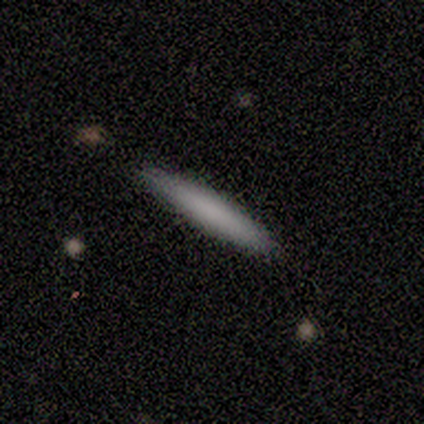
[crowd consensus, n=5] Smooth or featured?
  - smooth: 80% *
  - featured or disk: 20%
  - star or artifact: 0%
How rounded?
  - cigar-shaped: 100% *
  - round: 0%
  - in between: 0%
Merging?
  - none: 100% *
  - minor disturbance: 0%
  - major disturbance: 0%
  - merger: 0%